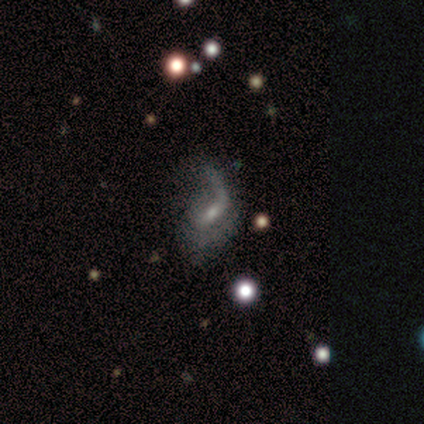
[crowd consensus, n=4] This is clearly a featured or disk galaxy (100%). It is clearly not viewed edge-on (100%). Bar: clearly weak (100%). Spiral arm pattern: clearly yes (100%). Spiral arm count: clearly 1 (100%). Spiral winding: likely loose (75%). Central bulge: likely moderate (75%). Merging: likely none (75%).